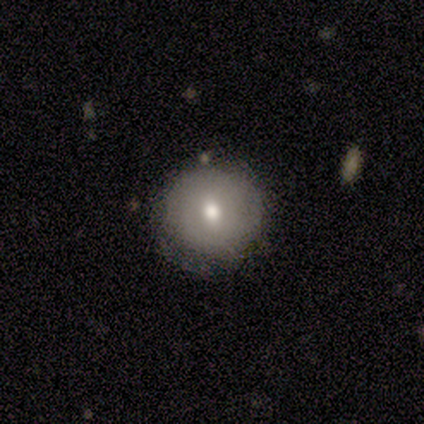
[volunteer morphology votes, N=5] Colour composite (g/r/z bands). It shows a smooth galaxy with no disk features (80%) that is round (100%). Merging: none (75%).